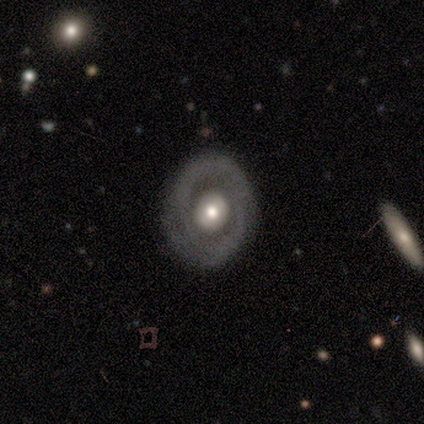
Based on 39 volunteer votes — featured or disk 82%, smooth 13%, star or artifact 5%. Down the decision tree: edge-on disk — no (94%); bar — no (57%); spiral arms — no (67%); bulge size — moderate (67%); merging — none (89%).